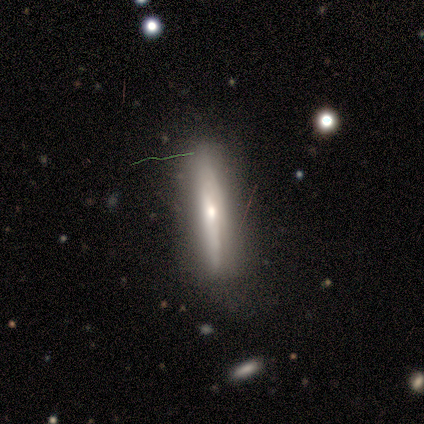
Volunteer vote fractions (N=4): Smooth or featured? 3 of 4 (75%) said smooth. How rounded? 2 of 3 (67%) said cigar-shaped. Merging? 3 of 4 (75%) said none.